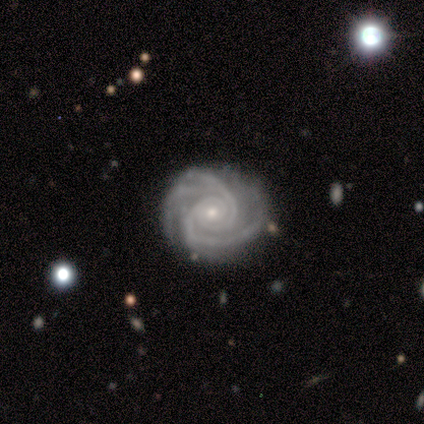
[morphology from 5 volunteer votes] Smooth or featured? featured or disk (100%)
Edge-on disk? no (80%)
Bar? no (100%)
Spiral arms? yes (100%)
Spiral winding? tight (75%)
Spiral arm count? 3 (50%)
Bulge size? moderate (50%, tied with small)
Merging? none (80%)